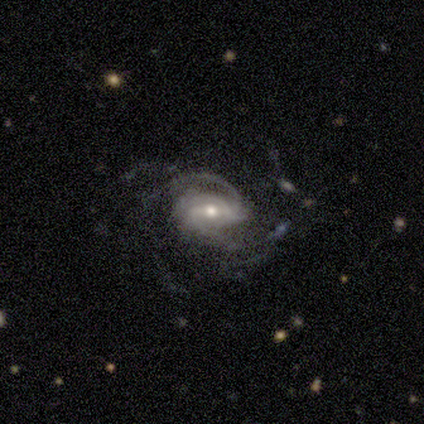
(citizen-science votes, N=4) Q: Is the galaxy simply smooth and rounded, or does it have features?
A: featured or disk — 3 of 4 (75%).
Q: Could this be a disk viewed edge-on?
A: no — 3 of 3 (100%).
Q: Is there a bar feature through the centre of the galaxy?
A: strong — 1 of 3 (33%, tied with weak and no).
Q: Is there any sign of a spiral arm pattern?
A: yes — 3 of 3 (100%).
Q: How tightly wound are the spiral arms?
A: medium — 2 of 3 (67%).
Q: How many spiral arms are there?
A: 1 — 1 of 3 (33%, tied with 2 and more than 4).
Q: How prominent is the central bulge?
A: moderate — 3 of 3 (100%).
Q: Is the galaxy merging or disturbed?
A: none — 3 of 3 (100%).